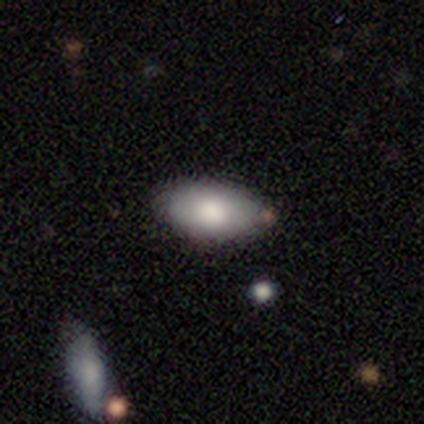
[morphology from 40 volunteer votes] This appears to be a smooth galaxy with no disk features (70%) that is in between round and cigar-shaped (86%). Merging: none (81%).